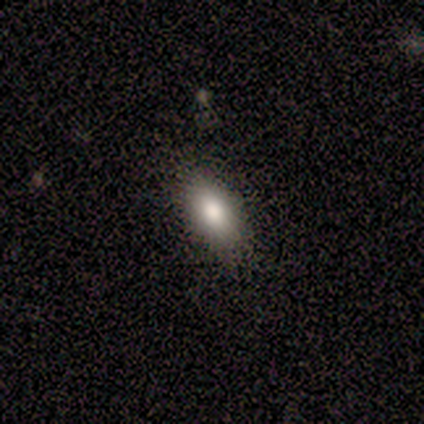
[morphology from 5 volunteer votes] A smooth galaxy with no disk features (100%) that is in between round and cigar-shaped (100%). Merging: none (80%).